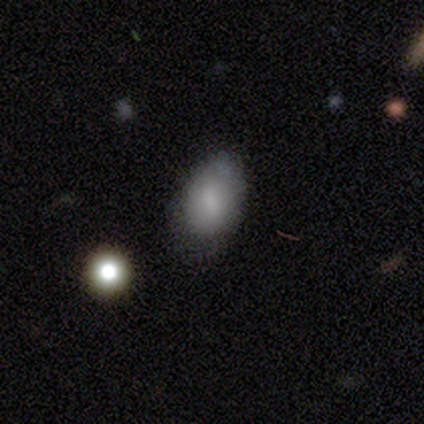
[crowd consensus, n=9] Overall: smooth (89%). How rounded: in between (75%). Merging: none (38%, tied with minor disturbance).